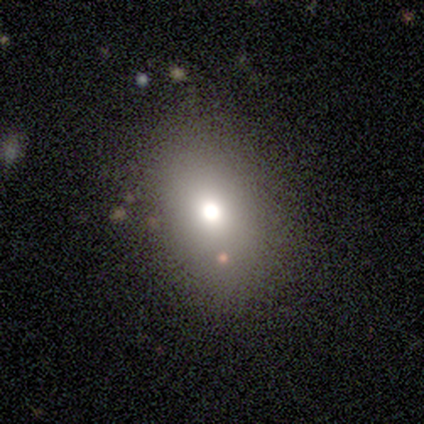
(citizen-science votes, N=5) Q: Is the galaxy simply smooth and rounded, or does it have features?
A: smooth — 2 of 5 (40%, tied with star or artifact).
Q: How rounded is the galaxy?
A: in between — 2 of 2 (100%).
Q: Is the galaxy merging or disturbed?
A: none — 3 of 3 (100%).